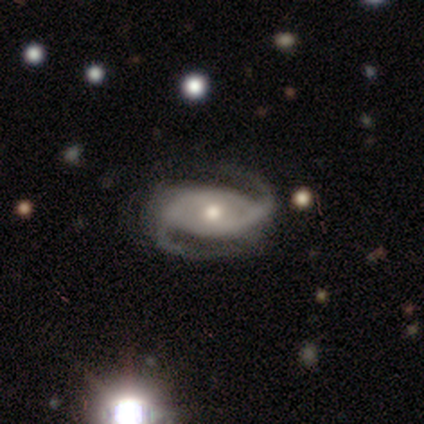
Smooth or featured? 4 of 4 (100%) said featured or disk. Edge-on disk? 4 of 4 (100%) said no. Bar? 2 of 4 (50%) said no. Spiral arms? 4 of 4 (100%) said yes. Spiral winding? 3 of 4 (75%) said medium. Spiral arm count? 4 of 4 (100%) said 2. Bulge size? 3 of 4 (75%) said moderate. Merging? 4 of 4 (100%) said none.